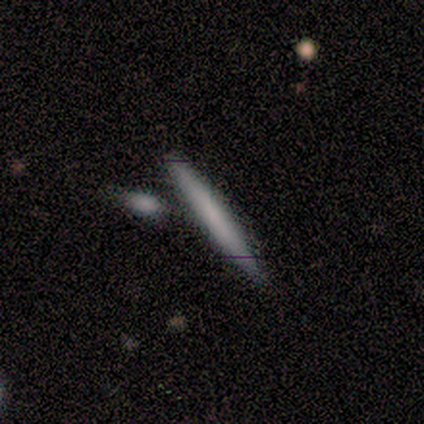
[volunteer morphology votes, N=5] Overall: smooth (60%; featured or disk 40%). How rounded: cigar-shaped (100%). Merging: none (80%).